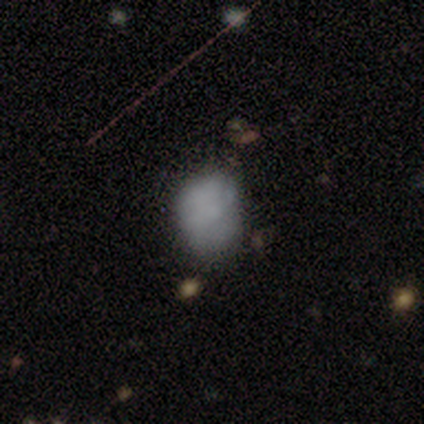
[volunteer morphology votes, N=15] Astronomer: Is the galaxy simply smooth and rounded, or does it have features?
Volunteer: smooth — 80%.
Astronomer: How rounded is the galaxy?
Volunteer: in between — 58% (runner-up: round, 42%).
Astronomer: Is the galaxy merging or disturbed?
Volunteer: none — 71%.